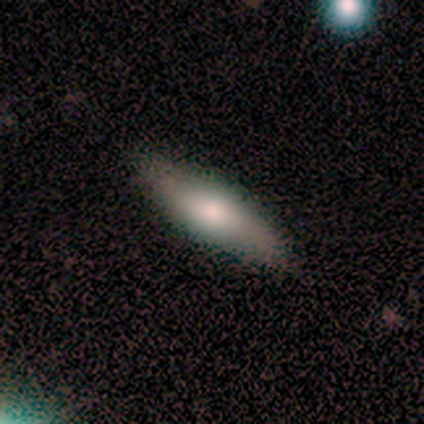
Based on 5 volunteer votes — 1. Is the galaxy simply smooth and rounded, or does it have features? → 80% smooth, 20% featured or disk, 0% star or artifact.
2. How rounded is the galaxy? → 75% in between, 25% cigar-shaped, 0% round.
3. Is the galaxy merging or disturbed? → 100% none, 0% minor disturbance, 0% major disturbance, 0% merger.